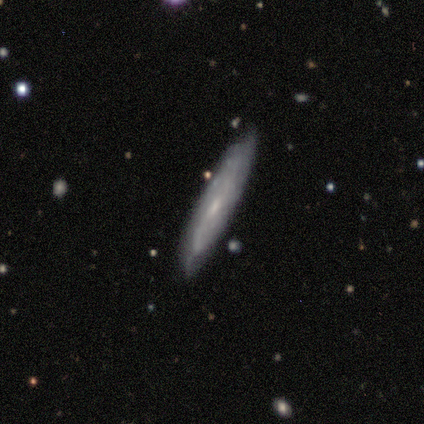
A featured or disk galaxy (100%) with no bar (75%), 2 (50%, tied with can't tell) loose (100%) spiral arms (50%, tied with no) and a small central bulge (75%).

Vote fractions:
- Smooth or featured? featured or disk: 100% / smooth: 0% / star or artifact: 0%
- Edge-on disk? no: 80% / yes: 20%
- Bar? no: 75% / weak: 25% / strong: 0%
- Spiral arms? yes: 50% (tied) / no: 50% (tied)
- Spiral winding? loose: 100% / tight: 0% / medium: 0%
- Spiral arm count? 2: 50% (tied) / can't tell: 50% (tied) / 1: 0% / 3: 0% / 4: 0% / more than 4: 0%
- Bulge size? small: 75% / moderate: 25% / dominant: 0% / large: 0% / none: 0%
- Merging? minor disturbance: 60% / none: 40% / major disturbance: 0% / merger: 0%